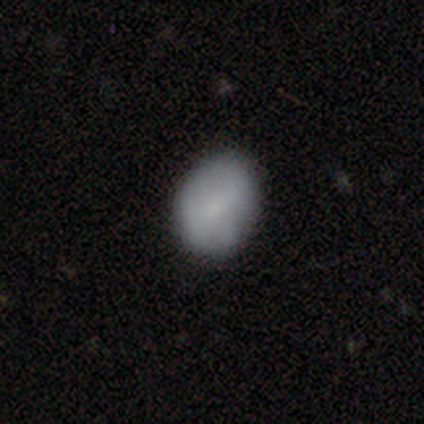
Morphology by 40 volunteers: A smooth galaxy with no disk features (70%) that is round (50%, tied with in between).

Vote fractions:
- Smooth or featured? smooth: 70% / featured or disk: 25% / star or artifact: 5%
- How rounded? round: 50% (tied) / in between: 50% (tied) / cigar-shaped: 0%
- Merging? none: 79% / minor disturbance: 18% / major disturbance: 3% / merger: 0%